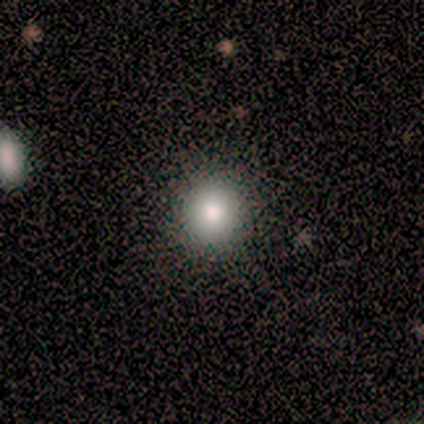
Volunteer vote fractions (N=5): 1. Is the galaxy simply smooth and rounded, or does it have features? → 100% smooth, 0% featured or disk, 0% star or artifact.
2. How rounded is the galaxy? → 100% round, 0% in between, 0% cigar-shaped.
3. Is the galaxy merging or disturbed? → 100% none, 0% minor disturbance, 0% major disturbance, 0% merger.